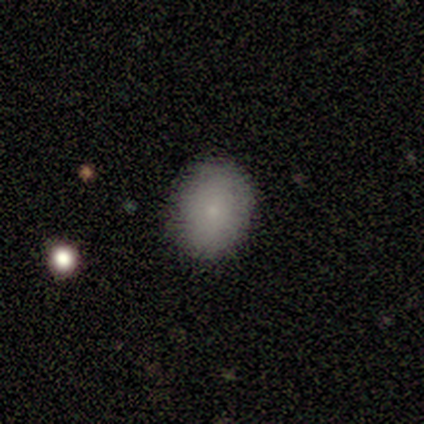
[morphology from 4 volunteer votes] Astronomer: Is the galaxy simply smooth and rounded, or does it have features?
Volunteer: smooth — 75%.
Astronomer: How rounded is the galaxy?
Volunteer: round — 67%.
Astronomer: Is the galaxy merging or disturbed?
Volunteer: none — 67%.